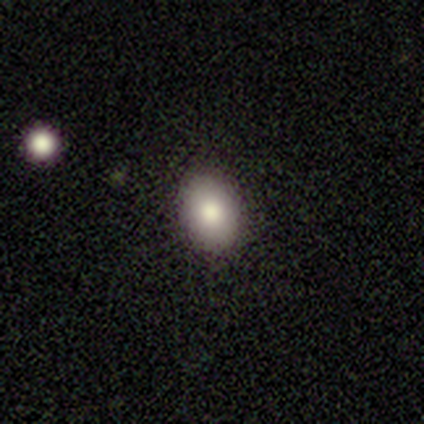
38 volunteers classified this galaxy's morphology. A smooth galaxy with no disk features (76%) that is in between round and cigar-shaped (72%).

Vote fractions:
- Smooth or featured? smooth: 76% / star or artifact: 13% / featured or disk: 11%
- How rounded? in between: 72% / round: 28% / cigar-shaped: 0%
- Merging? none: 85% / minor disturbance: 9% / major disturbance: 3% / merger: 3%